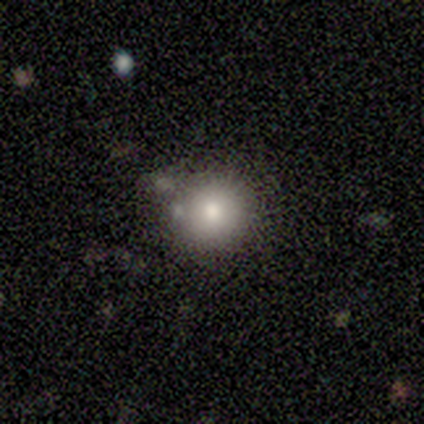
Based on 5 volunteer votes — Smooth or featured? 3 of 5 (60%) said smooth. How rounded? 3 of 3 (100%) said round. Merging? 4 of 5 (80%) said none.